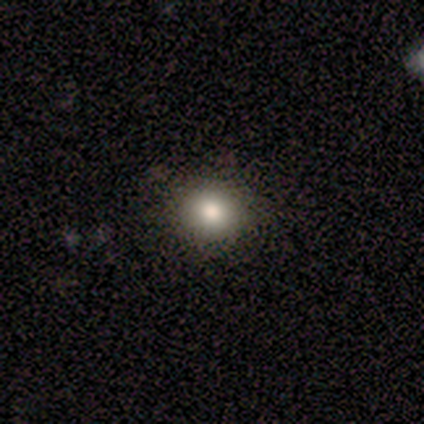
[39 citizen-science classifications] Smooth or featured: smooth — 69% (featured or disk — 21%)
How rounded: round — 89% (in between — 11%)
Merging: none — 94% (minor disturbance — 6%)